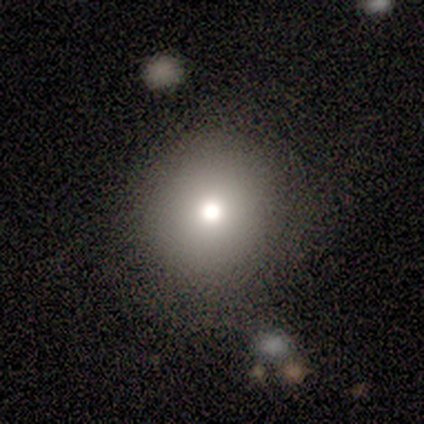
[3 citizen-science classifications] Morphology: type=smooth (67%); roundness=round (50%, tied with in between); merging=none (100%).